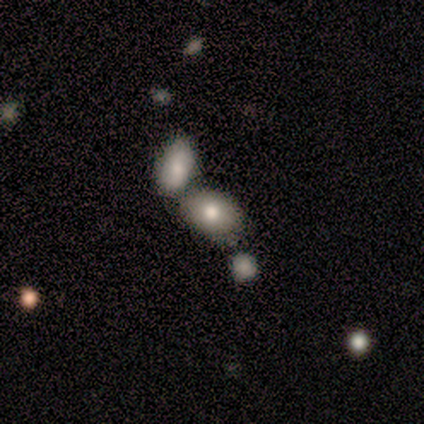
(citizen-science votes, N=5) smooth_or_featured: smooth (p=0.60) [alt: featured or disk p=0.40]
how_rounded: in between (p=0.67) [alt: round p=0.33]
merging: merger (p=0.80) [alt: none p=0.20]